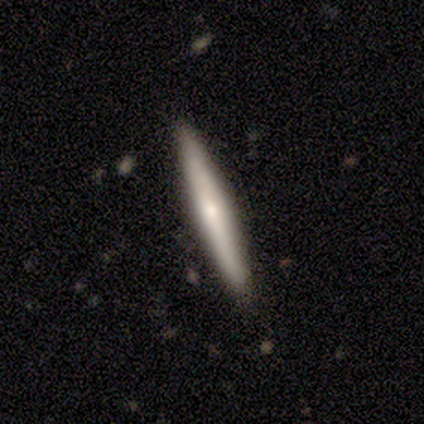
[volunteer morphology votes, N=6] This appears to be a featured or disk galaxy (67%) viewed edge-on (100%) with a rounded central bulge (75%). Merging: none (100%).